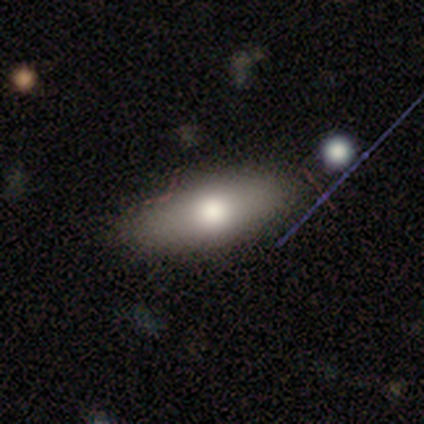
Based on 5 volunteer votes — This is likely a smooth galaxy (60%). How rounded: likely in between (67%). Merging: clearly none (100%).